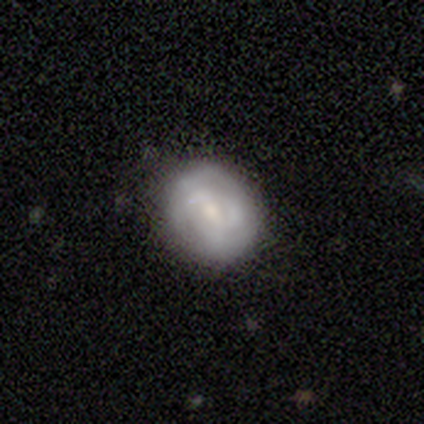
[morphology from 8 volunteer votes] Smooth or featured? 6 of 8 (75%) said featured or disk. Edge-on disk? 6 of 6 (100%) said no. Bar? 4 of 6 (67%) said no. Spiral arms? 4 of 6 (67%) said yes. Spiral winding? 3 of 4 (75%) said tight. Spiral arm count? 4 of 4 (100%) said can't tell. Bulge size? 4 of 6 (67%) said small. Merging? 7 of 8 (88%) said none.